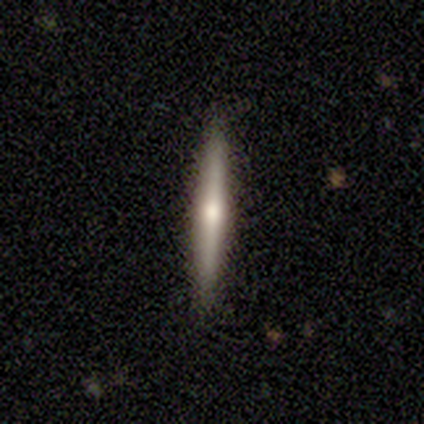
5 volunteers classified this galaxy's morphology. This appears to be a featured or disk galaxy (60%) viewed edge-on (100%) with a rounded central bulge (100%). Merging: none (100%).